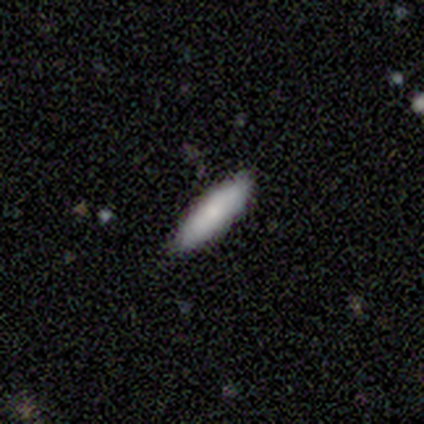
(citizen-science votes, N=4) This appears to be a smooth galaxy with no disk features (100%) that is in between round and cigar-shaped (50%, tied with cigar-shaped). Merging: none (75%).